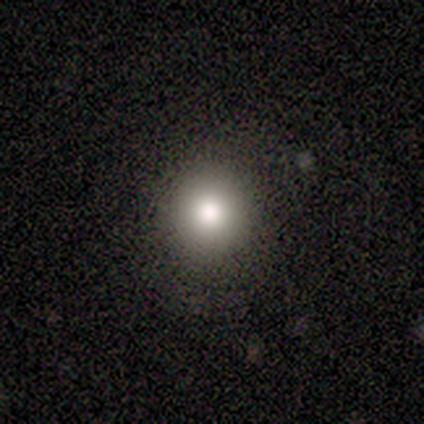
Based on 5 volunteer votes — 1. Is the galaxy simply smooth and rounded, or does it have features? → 80% smooth, 20% featured or disk, 0% star or artifact.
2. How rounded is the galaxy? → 75% round, 25% in between, 0% cigar-shaped.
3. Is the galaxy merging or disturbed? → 80% none, 20% minor disturbance, 0% major disturbance, 0% merger.